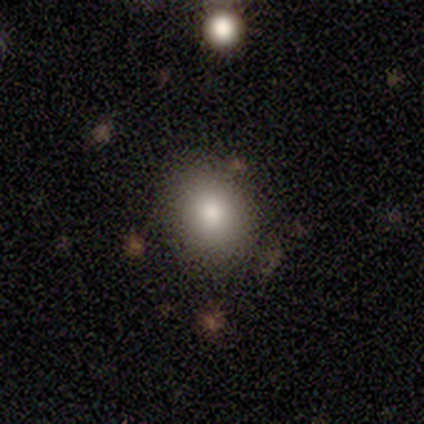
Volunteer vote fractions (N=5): This appears to be a smooth galaxy with no disk features (60%) that is round (67%). Merging: none (100%).